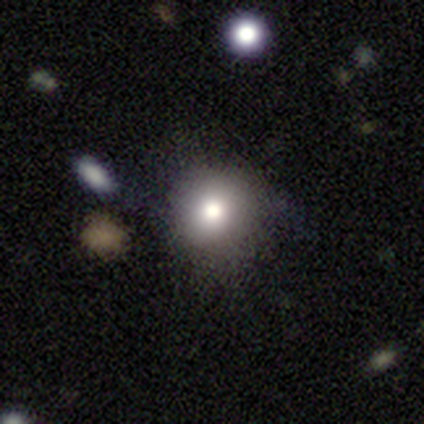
A smooth galaxy with no disk features (60%) that is round (100%).

Vote fractions:
- Smooth or featured? smooth: 60% / featured or disk: 20% / star or artifact: 20%
- How rounded? round: 100% / in between: 0% / cigar-shaped: 0%
- Merging? none: 50% / minor disturbance: 25% / merger: 25% / major disturbance: 0%